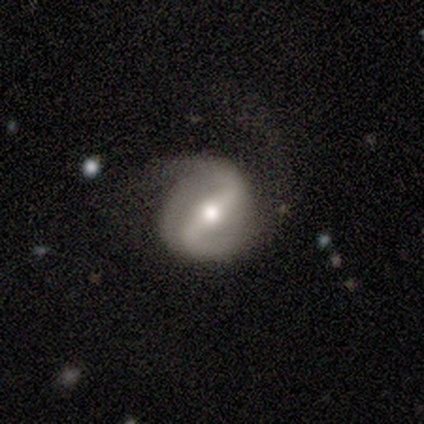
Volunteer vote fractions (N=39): This appears to be a featured or disk galaxy (79%) with a strong bar (70%), 2 (81%) loose (48%) spiral arms (90%) and a moderate central bulge (70%). Merging: none (66%).